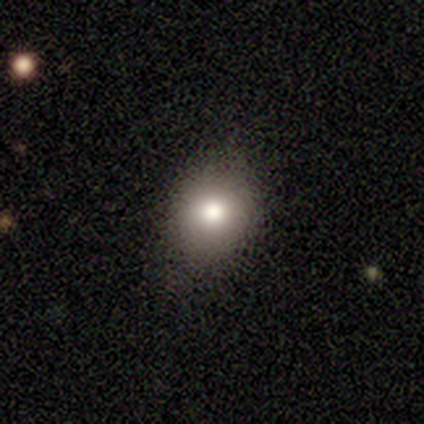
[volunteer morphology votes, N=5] A smooth galaxy with no disk features (80%) that is round (100%).

Vote fractions:
- Smooth or featured? smooth: 80% / star or artifact: 20% / featured or disk: 0%
- How rounded? round: 100% / in between: 0% / cigar-shaped: 0%
- Merging? none: 75% / minor disturbance: 25% / major disturbance: 0% / merger: 0%